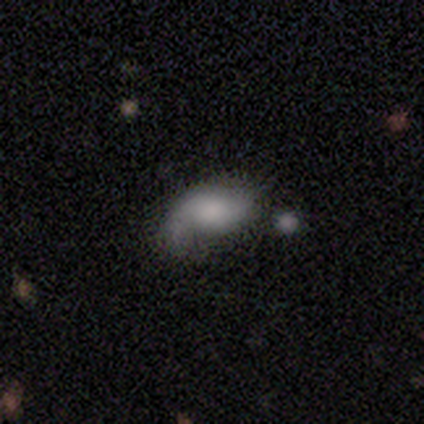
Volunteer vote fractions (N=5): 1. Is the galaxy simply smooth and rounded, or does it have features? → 60% featured or disk, 40% smooth, 0% star or artifact.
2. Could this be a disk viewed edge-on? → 100% no, 0% yes.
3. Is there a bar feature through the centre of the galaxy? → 67% no, 33% weak, 0% strong.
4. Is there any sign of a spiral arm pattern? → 67% yes, 33% no.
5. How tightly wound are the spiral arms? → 50% medium (tied), 50% loose (tied), 0% tight.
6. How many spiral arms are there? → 50% 1 (tied), 50% 2 (tied), 0% 3, 0% 4, 0% more than 4, 0% can't tell.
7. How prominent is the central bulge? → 33% large (tied), 33% moderate (tied), 33% none (tied), 0% dominant, 0% small.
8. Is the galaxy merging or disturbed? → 60% minor disturbance, 40% major disturbance, 0% none, 0% merger.